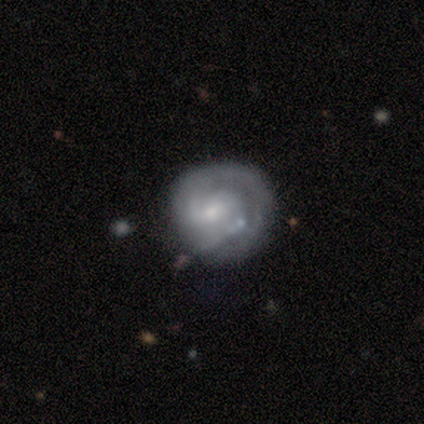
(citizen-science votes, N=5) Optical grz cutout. It shows a smooth galaxy with no disk features (60%) that is round (67%). Merging: none (40%, tied with minor disturbance).